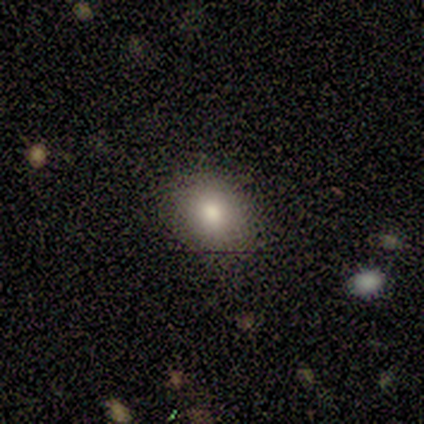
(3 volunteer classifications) A smooth galaxy with no disk features (100%) that is in between round and cigar-shaped (67%). Merging: none (67%).